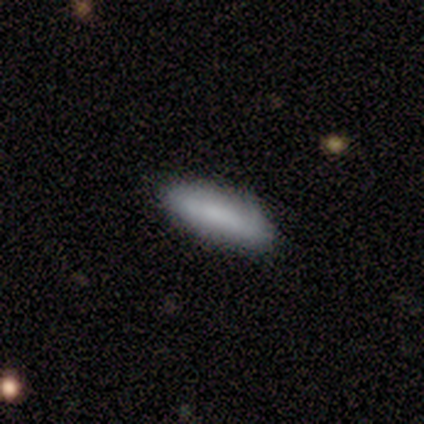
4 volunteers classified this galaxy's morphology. smooth-or-featured: smooth: 75% | featured or disk: 25% | star or artifact: 0%
  how-rounded: in between: 67% | cigar-shaped: 33% | round: 0%
  merging: none: 75% | minor disturbance: 25% | major disturbance: 0% | merger: 0%